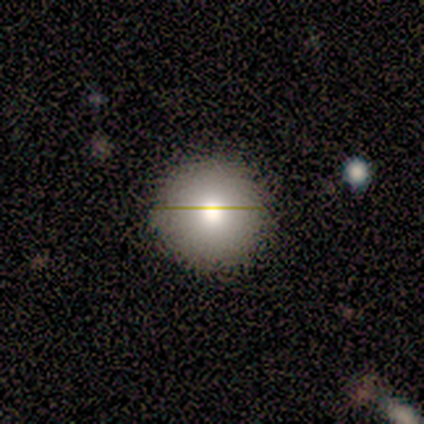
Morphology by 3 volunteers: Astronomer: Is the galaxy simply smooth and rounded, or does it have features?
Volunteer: smooth — 67%.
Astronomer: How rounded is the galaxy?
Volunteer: round — 100%.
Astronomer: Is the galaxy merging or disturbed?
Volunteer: none — 67%.